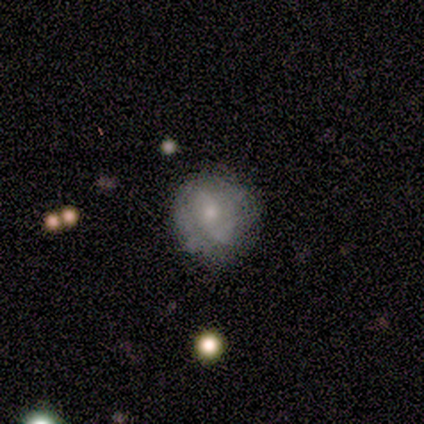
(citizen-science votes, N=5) Volunteers were most divided on "smooth or featured": featured or disk: 60%, smooth: 40%, star or artifact: 0%. Remaining: edge-on disk — no (100%); bulge size — small (100%); bar — no (67%); spiral arms — no (67%); merging — none (40%).